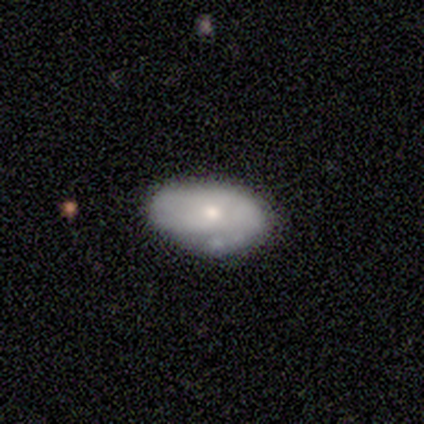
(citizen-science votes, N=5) Smooth or featured: smooth — 80% (star or artifact — 20%)
How rounded: in between — 100%
Merging: minor disturbance — 75% (none — 25%)